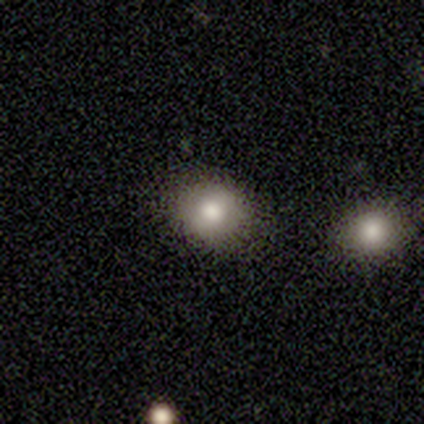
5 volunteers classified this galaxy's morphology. A smooth galaxy with no disk features (80%) that is round (75%).

Vote fractions:
- Smooth or featured? smooth: 80% / featured or disk: 20% / star or artifact: 0%
- How rounded? round: 75% / in between: 25% / cigar-shaped: 0%
- Merging? none: 80% / minor disturbance: 20% / major disturbance: 0% / merger: 0%